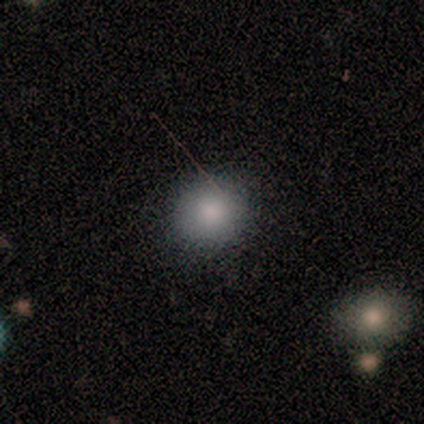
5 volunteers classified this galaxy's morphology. Volunteers were most divided on "how rounded": round: 75%, in between: 25%, cigar-shaped: 0%. More confident: smooth or featured — smooth (80%); merging — none (80%).